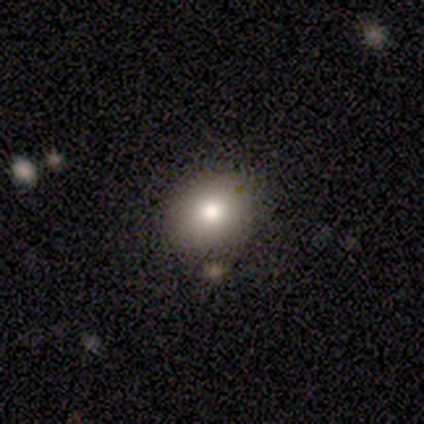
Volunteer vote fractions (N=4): Q: Smooth or featured?
A: smooth (100%)
Q: How rounded?
A: in between (75%); runner-up: round (25%)
Q: Merging?
A: none (100%)